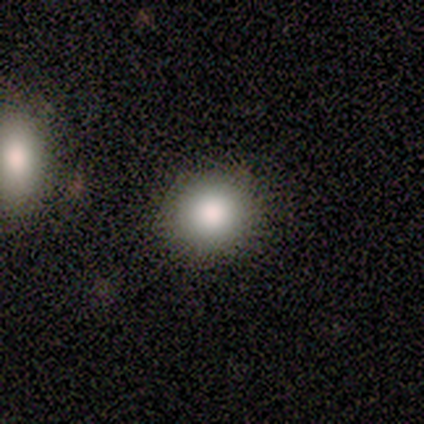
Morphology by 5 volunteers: Smooth or featured? smooth (100%)
How rounded? round (80%)
Merging? none (100%)